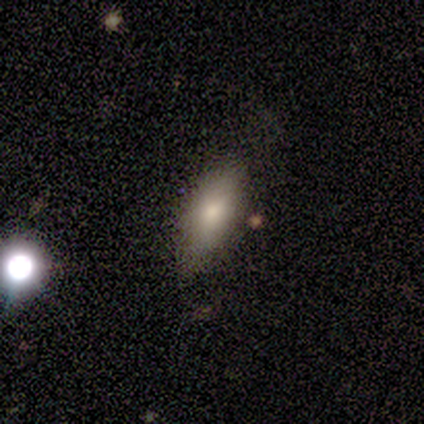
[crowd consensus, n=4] Morphology: type=smooth (50%, tied with featured or disk); roundness=in between (100%); merging=none (50%, tied with minor disturbance).